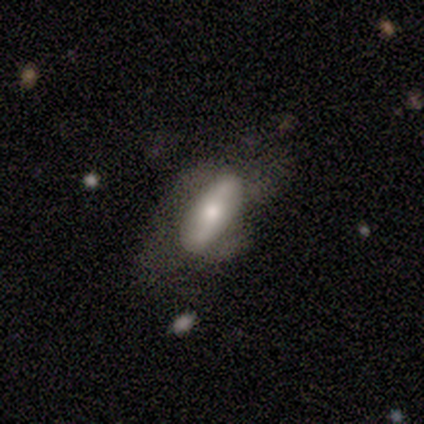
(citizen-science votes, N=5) smooth-or-featured: featured or disk: 60% | smooth: 40% | star or artifact: 0%
  disk-edge-on: no: 67% | yes: 33%
    bar: strong: 50% (tied) | weak: 50% (tied) | no: 0%
    has-spiral-arms: yes: 50% (tied) | no: 50% (tied)
      spiral-winding: loose: 100% | tight: 0% | medium: 0%
      spiral-arm-count: 2: 100% | 1: 0% | 3: 0% | 4: 0% | more than 4: 0% | can't tell: 0%
    bulge-size: large: 50% (tied) | small: 50% (tied) | dominant: 0% | moderate: 0% | none: 0%
  merging: none: 80% | minor disturbance: 20% | major disturbance: 0% | merger: 0%